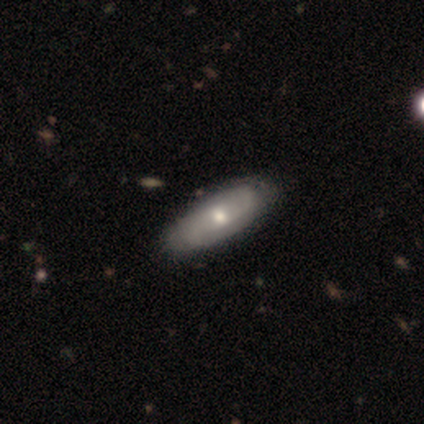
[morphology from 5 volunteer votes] Smooth or featured? 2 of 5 (40%, tied with featured or disk) said smooth. How rounded? 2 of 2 (100%) said in between. Merging? 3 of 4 (75%) said none.